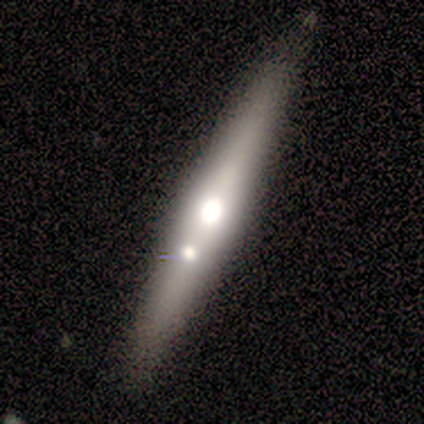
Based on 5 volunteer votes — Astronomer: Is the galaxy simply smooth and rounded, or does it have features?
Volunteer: featured or disk — 80%.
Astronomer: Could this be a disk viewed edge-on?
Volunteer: yes — 100%.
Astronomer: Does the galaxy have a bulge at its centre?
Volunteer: rounded — 75%.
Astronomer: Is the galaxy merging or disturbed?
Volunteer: none — 60% (runner-up: minor disturbance, 40%).